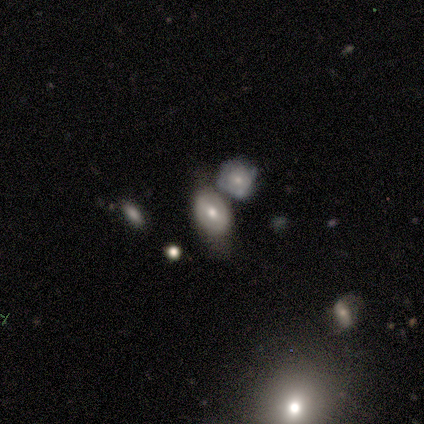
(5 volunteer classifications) Overall: featured or disk (40%, tied with star or artifact). Edge-on disk: no (100%). Bar: weak (50%, tied with no). Spiral arms: yes (50%, tied with no). Spiral arm count: can't tell (100%). Spiral winding: tight (100%). Bulge size: moderate (100%). Merging: minor disturbance (100%).